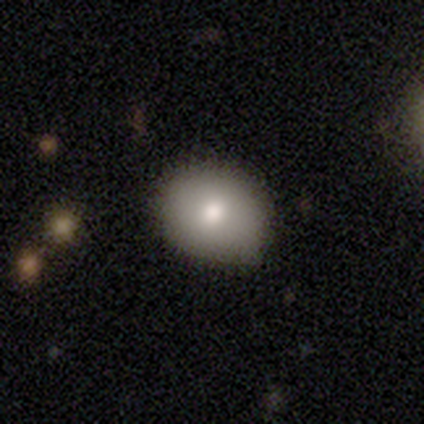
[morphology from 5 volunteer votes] Smooth or featured? 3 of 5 (60%) said smooth. How rounded? 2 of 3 (67%) said in between. Merging? 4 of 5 (80%) said none.